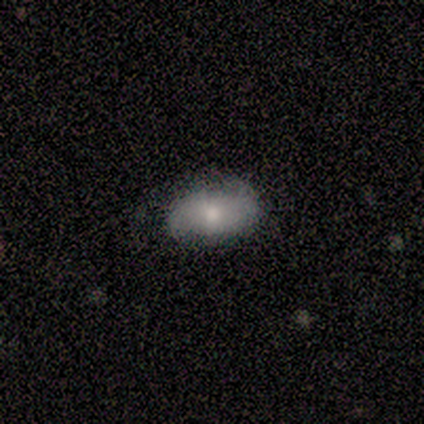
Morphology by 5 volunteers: This appears to be a smooth galaxy with no disk features (100%) that is in between round and cigar-shaped (100%). Merging: minor disturbance (60%).